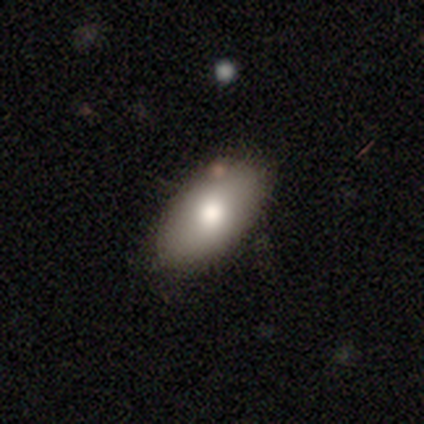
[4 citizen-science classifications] Smooth or featured? smooth (50%, tied with featured or disk)
How rounded? in between (100%)
Merging? none (100%)